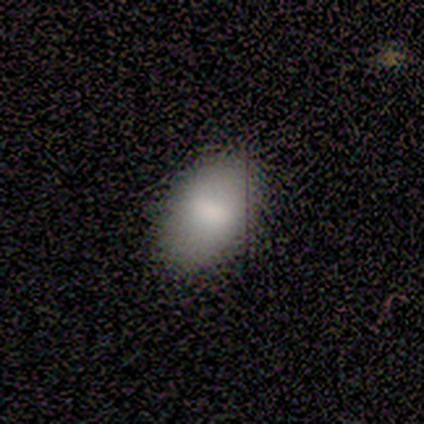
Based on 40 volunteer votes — Volunteers were most divided on "merging": none: 57%, minor disturbance: 14%, major disturbance: 3%, merger: 0%. More confident: how rounded — in between (94%); smooth or featured — smooth (85%).